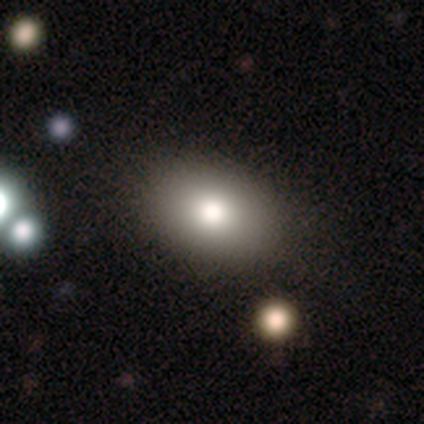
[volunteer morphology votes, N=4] Smooth or featured?
  - smooth: 75% *
  - featured or disk: 25%
  - star or artifact: 0%
How rounded?
  - round: 67% *
  - in between: 33%
  - cigar-shaped: 0%
Merging?
  - none: 75% *
  - minor disturbance: 25%
  - major disturbance: 0%
  - merger: 0%